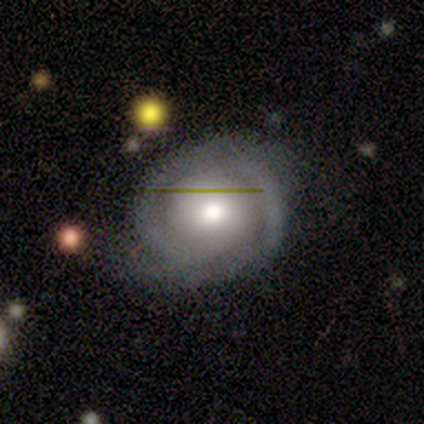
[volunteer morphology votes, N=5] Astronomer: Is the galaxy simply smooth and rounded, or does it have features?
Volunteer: featured or disk — 100%.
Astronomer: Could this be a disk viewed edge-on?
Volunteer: no — 100%.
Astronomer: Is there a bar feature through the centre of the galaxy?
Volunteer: no — 80%.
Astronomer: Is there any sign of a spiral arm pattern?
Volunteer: yes — 80%.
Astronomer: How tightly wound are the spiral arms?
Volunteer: tight — 50%.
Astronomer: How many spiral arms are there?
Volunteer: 2 — 50%.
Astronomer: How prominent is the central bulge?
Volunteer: small — 60%.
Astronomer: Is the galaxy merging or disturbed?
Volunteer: none — 100%.